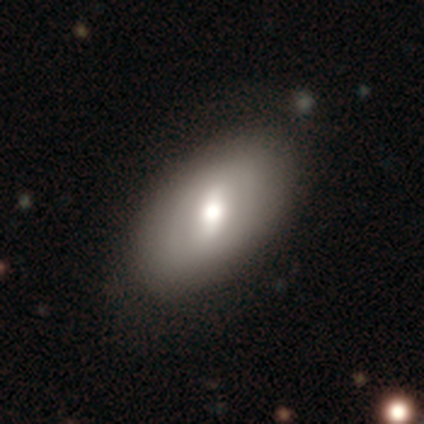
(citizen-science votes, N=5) Smooth or featured: smooth — 100%
How rounded: in between — 60% (round — 20%)
Merging: none — 60% (minor disturbance — 20%)